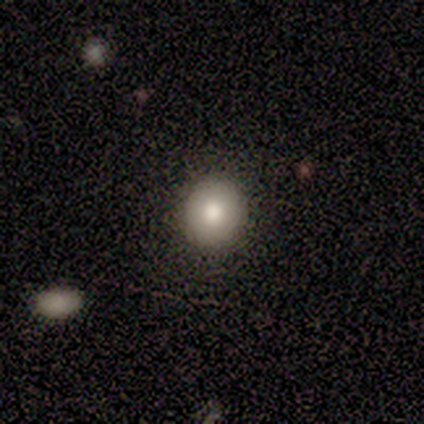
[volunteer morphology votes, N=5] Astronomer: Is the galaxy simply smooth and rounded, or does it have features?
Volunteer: smooth — 80%.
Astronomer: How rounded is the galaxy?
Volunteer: round — 75%.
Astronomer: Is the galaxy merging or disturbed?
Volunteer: none — 80%.